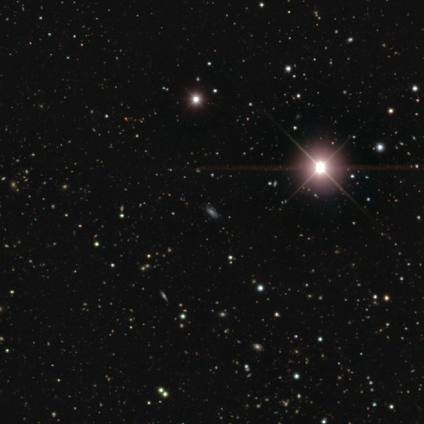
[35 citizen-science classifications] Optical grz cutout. It shows a star or artifact, not a galaxy (54%).